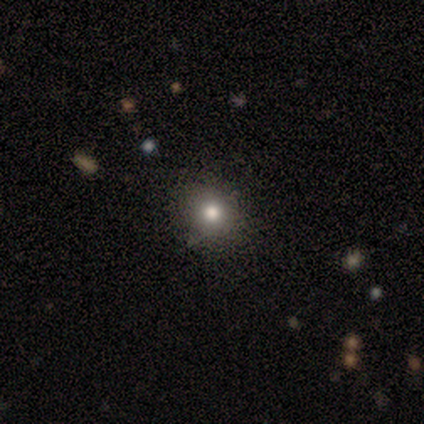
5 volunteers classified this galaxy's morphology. smooth_or_featured: smooth (p=0.80) [alt: star or artifact p=0.20]
how_rounded: round (p=1.00)
merging: none (p=1.00)